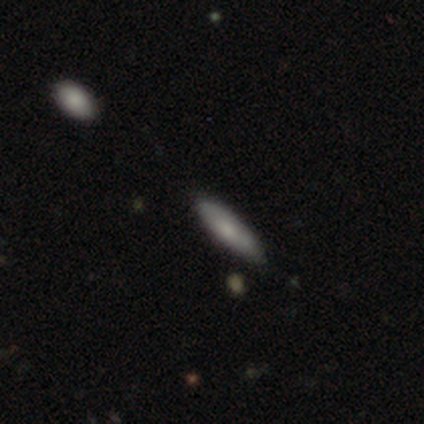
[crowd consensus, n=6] Morphology: type=smooth (67%); roundness=cigar-shaped (75%); merging=none (80%).